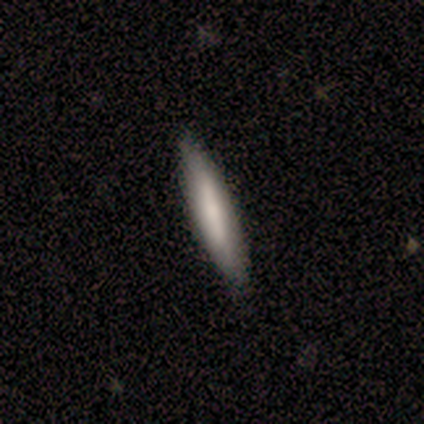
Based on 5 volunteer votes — A smooth galaxy with no disk features (60%) that is cigar-shaped (100%). Merging: none (80%).